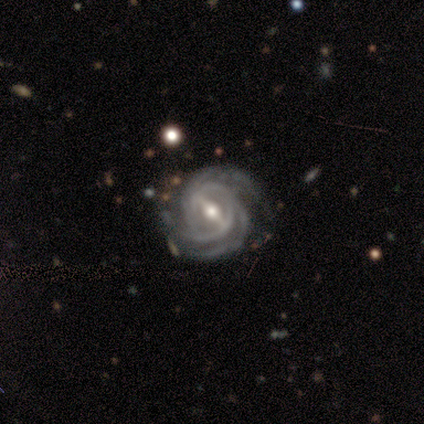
Q: Smooth or featured?
A: featured or disk (100%)
Q: Edge-on disk?
A: no (100%)
Q: Bar?
A: strong (80%); runner-up: weak (20%)
Q: Spiral arms?
A: yes (100%)
Q: Spiral winding?
A: tight (60%); runner-up: medium (40%)
Q: Spiral arm count?
A: 3 (100%)
Q: Bulge size?
A: moderate (60%); runner-up: small (40%)
Q: Merging?
A: none (100%)